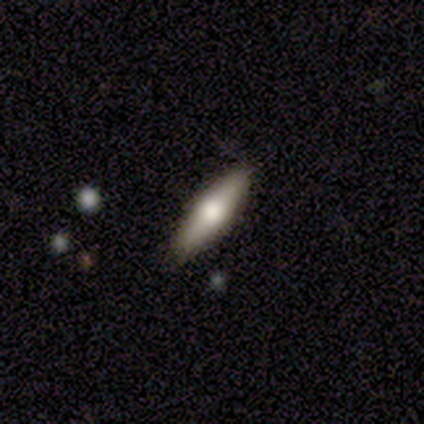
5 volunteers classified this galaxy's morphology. smooth_or_featured: smooth (p=0.60) [alt: featured or disk p=0.40]
how_rounded: cigar-shaped (p=0.67) [alt: in between p=0.33]
merging: none (p=0.60) [alt: minor disturbance p=0.20]